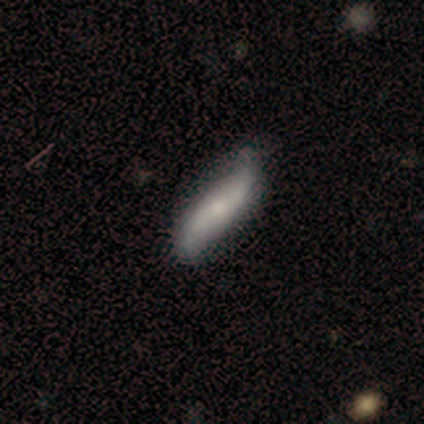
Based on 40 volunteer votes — This appears to be a featured or disk galaxy (60%) with no bar (75%), 2 (94%) loose (100%) spiral arms (90%) and a small central bulge (60%). Merging: none (66%).